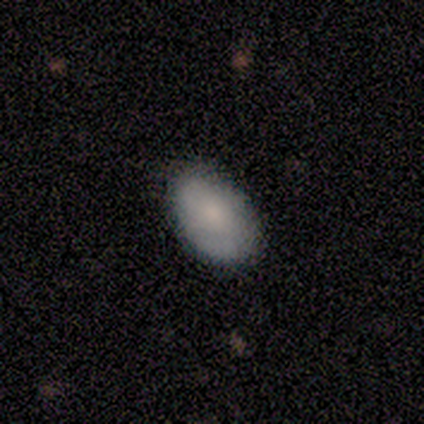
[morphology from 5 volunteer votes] Smooth or featured? smooth (80%)
How rounded? in between (100%)
Merging? none (100%)